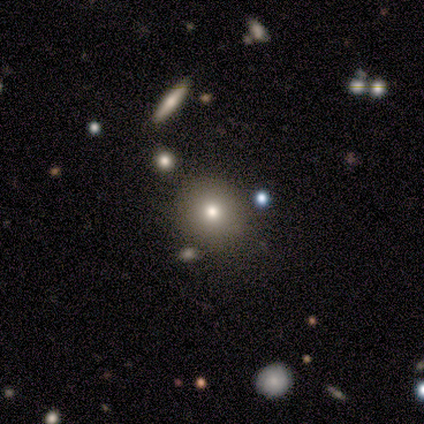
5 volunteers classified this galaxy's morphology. type=smooth (60%); roundness=round (100%); merging=none (100%).